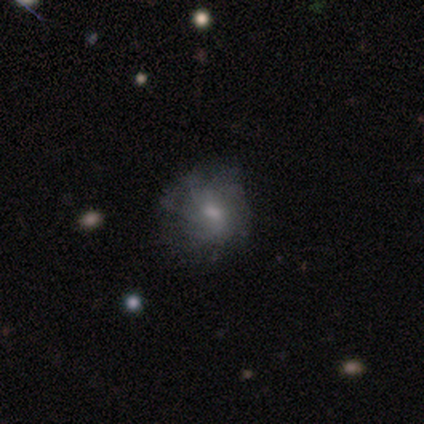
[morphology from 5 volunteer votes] Smooth or featured? smooth (40%, tied with featured or disk)
How rounded? round (100%)
Merging? none (100%)